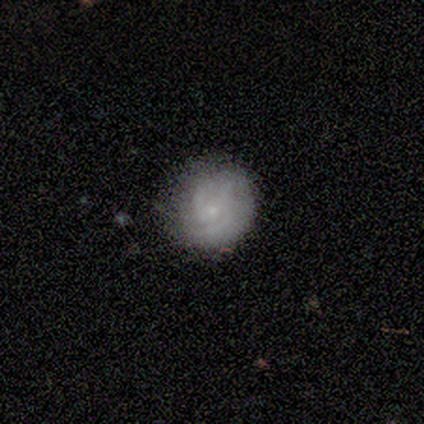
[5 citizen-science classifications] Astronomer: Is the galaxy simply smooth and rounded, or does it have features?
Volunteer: featured or disk — 60% (runner-up: smooth, 40%).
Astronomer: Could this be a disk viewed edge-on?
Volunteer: no — 100%.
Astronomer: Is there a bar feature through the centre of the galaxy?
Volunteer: no — 67%.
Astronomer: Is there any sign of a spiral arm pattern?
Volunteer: yes — 100%.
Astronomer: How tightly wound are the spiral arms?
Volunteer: tight — 67%.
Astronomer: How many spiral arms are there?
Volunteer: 2 — 67%.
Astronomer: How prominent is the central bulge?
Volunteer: small — 100%.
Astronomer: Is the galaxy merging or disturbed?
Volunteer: none — 100%.